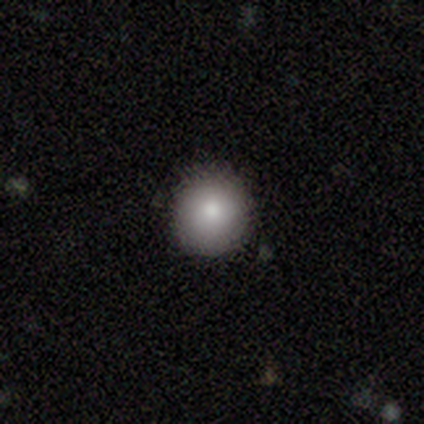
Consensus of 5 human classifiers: Morphology: type=smooth (80%); roundness=round (100%); merging=none (80%).